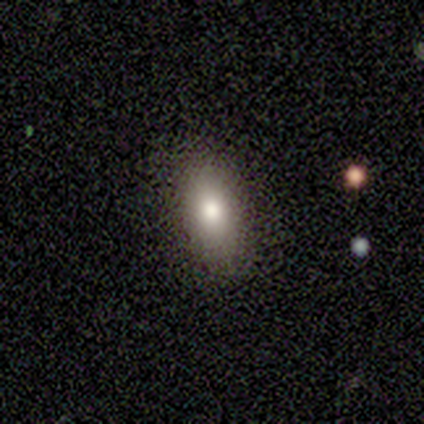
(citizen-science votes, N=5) smooth-or-featured: smooth: 100% | featured or disk: 0% | star or artifact: 0%
  how-rounded: in between: 100% | round: 0% | cigar-shaped: 0%
  merging: none: 100% | minor disturbance: 0% | major disturbance: 0% | merger: 0%